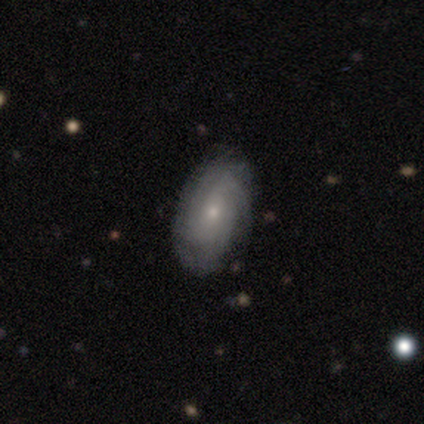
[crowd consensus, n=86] Overall: featured or disk (69%). Edge-on disk: no (97%). Bar: no (82%). Spiral arms: yes (88%). Spiral arm count: can't tell (52%; 4 20%). Spiral winding: tight (62%; medium 30%). Bulge size: small (72%). Merging: none (84%).